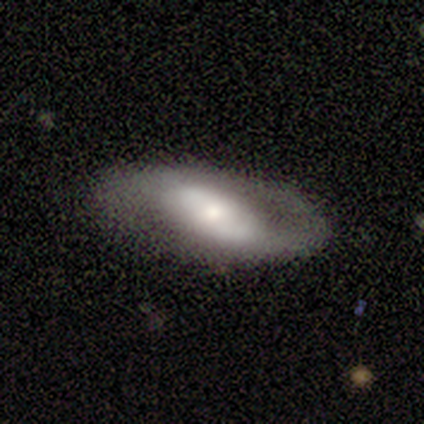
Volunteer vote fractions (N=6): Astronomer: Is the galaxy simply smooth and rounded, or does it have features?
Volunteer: featured or disk — 100%.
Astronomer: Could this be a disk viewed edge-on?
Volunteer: no — 83%.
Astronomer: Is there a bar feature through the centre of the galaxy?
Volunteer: no — 60% (runner-up: weak, 40%).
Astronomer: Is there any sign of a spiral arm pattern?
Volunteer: yes — 60% (runner-up: no, 40%).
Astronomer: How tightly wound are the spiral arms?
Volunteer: medium — 100%.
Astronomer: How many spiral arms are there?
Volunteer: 2 — 67%.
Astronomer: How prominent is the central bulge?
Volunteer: moderate — 40%, tied with small at 40%.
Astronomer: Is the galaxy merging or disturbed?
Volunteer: none — 67%.